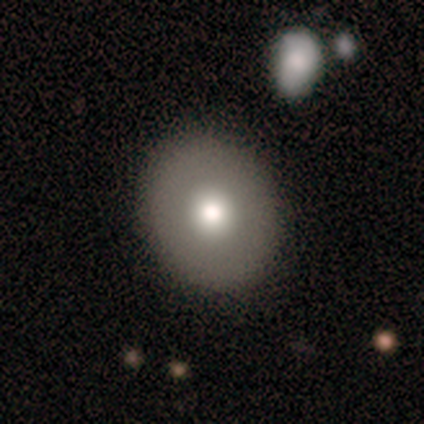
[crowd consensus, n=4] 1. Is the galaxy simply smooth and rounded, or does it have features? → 75% smooth, 25% featured or disk, 0% star or artifact.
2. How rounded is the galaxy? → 100% round, 0% in between, 0% cigar-shaped.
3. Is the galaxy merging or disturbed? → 100% none, 0% minor disturbance, 0% major disturbance, 0% merger.